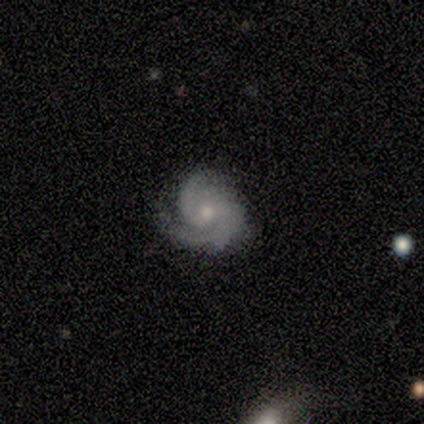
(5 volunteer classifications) Smooth or featured? featured or disk (100%)
Edge-on disk? no (100%)
Bar? no (80%)
Spiral arms? yes (100%)
Spiral winding? medium (60%)
Spiral arm count? 3 (80%)
Bulge size? small (80%)
Merging? none (60%)